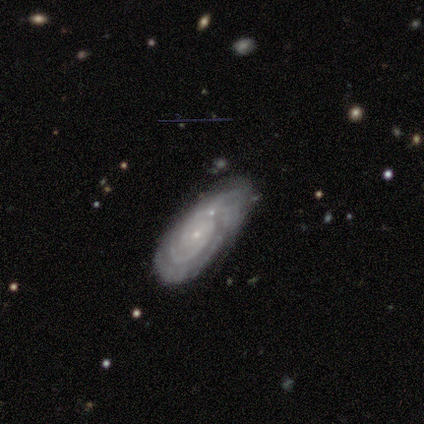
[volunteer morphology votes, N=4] Smooth or featured? 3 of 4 (75%) said featured or disk. Edge-on disk? 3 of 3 (100%) said no. Bar? 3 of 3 (100%) said no. Spiral arms? 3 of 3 (100%) said yes. Spiral winding? 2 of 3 (67%) said tight. Spiral arm count? 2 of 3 (67%) said can't tell. Bulge size? 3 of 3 (100%) said small. Merging? 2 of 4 (50%, tied with minor disturbance) said none.